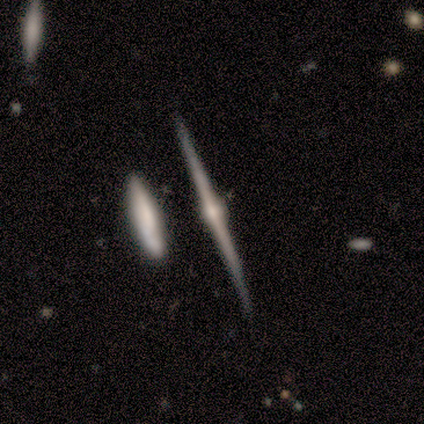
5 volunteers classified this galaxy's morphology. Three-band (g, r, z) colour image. It shows a featured or disk galaxy (100%) viewed edge-on (100%) with a rounded central bulge (100%). Merging: none (60%).